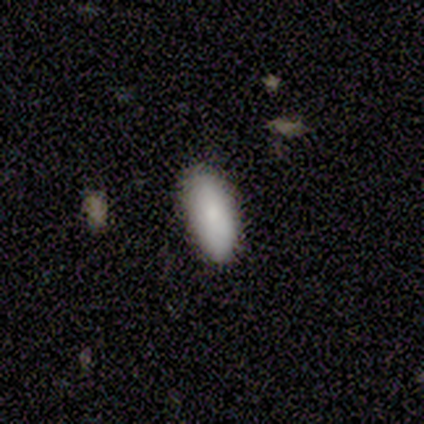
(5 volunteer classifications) Overall: smooth (100%). How rounded: in between (80%). Merging: none (100%).